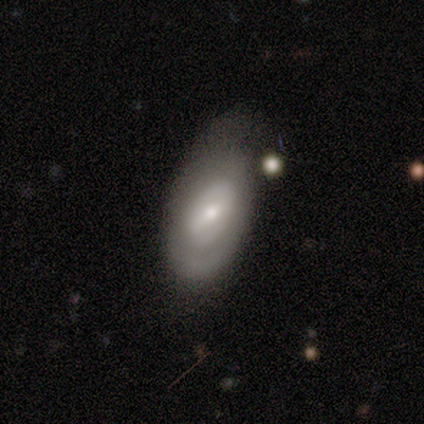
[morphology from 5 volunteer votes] Smooth or featured: featured or disk — 80% (smooth — 20%)
Edge-on disk: no — 100%
Bar: weak — 75% (no — 25%)
Spiral arms: yes — 50% (tied with no — 50%)
Spiral winding: tight — 100%
Spiral arm count: 2 — 50% (tied with can't tell — 50%)
Bulge size: moderate — 50% (tied with small — 50%)
Merging: minor disturbance — 60% (none — 40%)